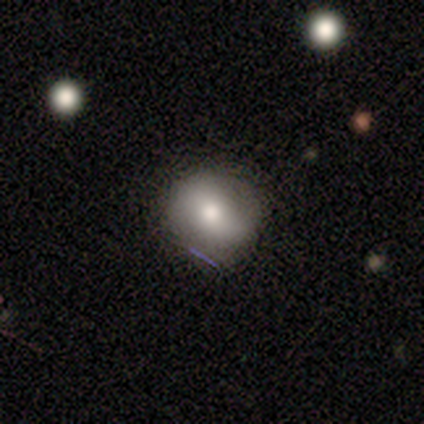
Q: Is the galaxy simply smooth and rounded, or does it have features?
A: smooth — 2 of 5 (40%, tied with featured or disk).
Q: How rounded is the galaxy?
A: round — 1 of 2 (50%, tied with in between).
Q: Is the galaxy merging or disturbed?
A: none — 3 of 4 (75%).